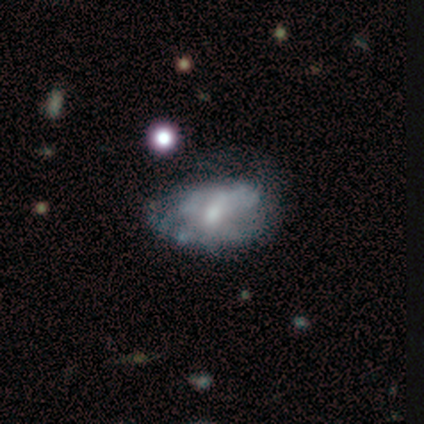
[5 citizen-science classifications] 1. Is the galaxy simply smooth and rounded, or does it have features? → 100% featured or disk, 0% smooth, 0% star or artifact.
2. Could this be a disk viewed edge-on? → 100% no, 0% yes.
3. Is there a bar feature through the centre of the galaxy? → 40% strong (tied), 40% no (tied), 20% weak.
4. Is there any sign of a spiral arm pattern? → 80% no, 20% yes.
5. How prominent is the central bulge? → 60% moderate, 20% large, 20% small, 0% dominant, 0% none.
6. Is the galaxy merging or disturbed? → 40% minor disturbance (tied), 40% major disturbance (tied), 20% none, 0% merger.